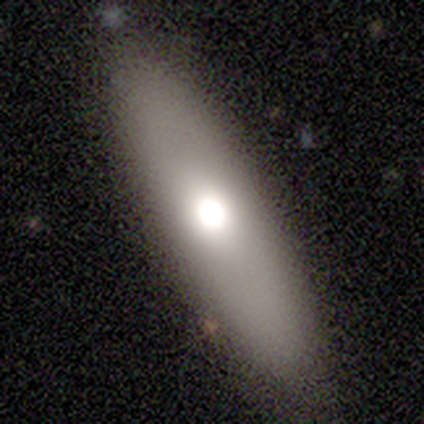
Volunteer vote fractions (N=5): Volunteers were most divided on "how rounded": cigar-shaped: 60%, in between: 40%, round: 0%. More confident: smooth or featured — smooth (100%); merging — none (100%).